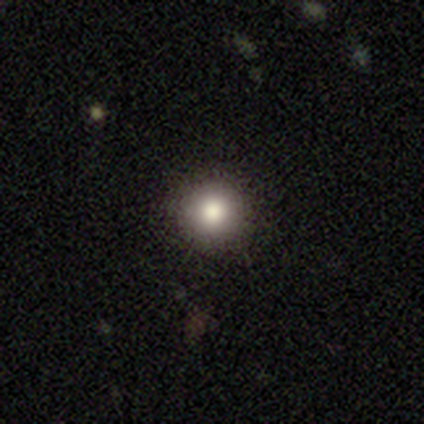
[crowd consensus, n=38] Morphology: type=smooth (84%); roundness=round (100%); merging=none (94%).